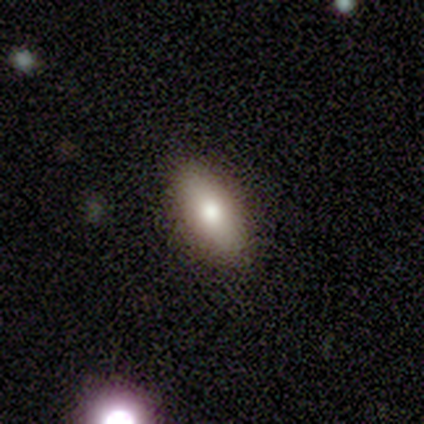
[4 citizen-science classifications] This appears to be a smooth galaxy with no disk features (50%, tied with star or artifact) that is in between round and cigar-shaped (100%). Merging: none (100%).